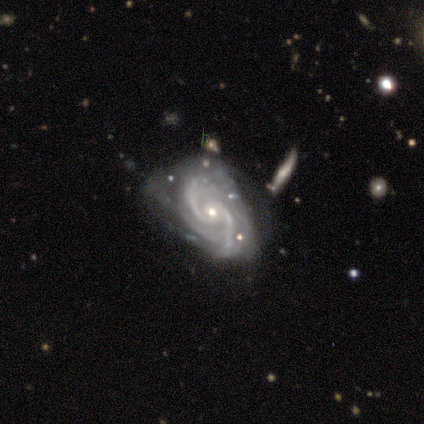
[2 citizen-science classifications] Consensus on every question: smooth or featured — featured or disk (100%); edge-on disk — no (100%); bar — weak (100%); spiral arms — yes (100%); spiral winding — medium (100%); spiral arm count — 2 (100%); bulge size — small (100%); merging — minor disturbance (100%).